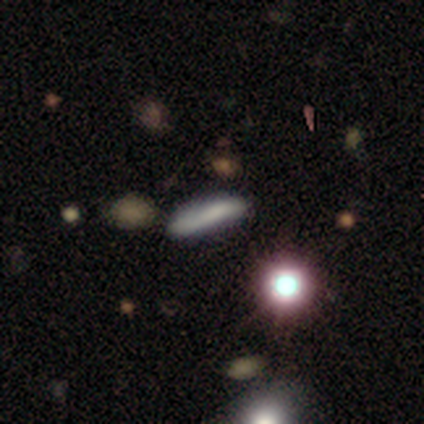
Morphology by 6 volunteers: smooth-or-featured: smooth: 83% | star or artifact: 17% | featured or disk: 0%
  how-rounded: cigar-shaped: 60% | round: 20% | in between: 20%
  merging: none: 80% | minor disturbance: 20% | major disturbance: 0% | merger: 0%